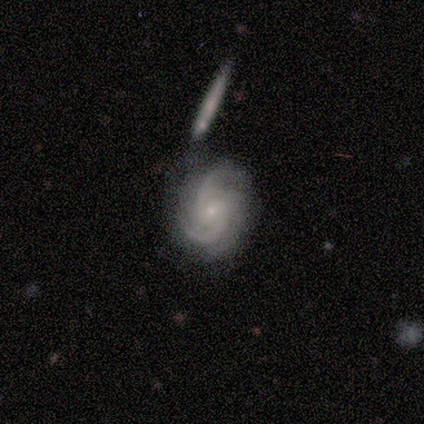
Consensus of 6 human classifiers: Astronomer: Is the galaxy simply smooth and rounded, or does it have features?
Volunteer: featured or disk — 50% (runner-up: star or artifact, 33%).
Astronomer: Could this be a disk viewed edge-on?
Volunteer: no — 100%.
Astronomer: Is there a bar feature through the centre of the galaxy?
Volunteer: weak — 67%.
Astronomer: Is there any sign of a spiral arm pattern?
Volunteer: yes — 100%.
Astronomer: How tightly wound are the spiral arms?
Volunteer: tight — 67%.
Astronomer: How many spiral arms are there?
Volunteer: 2 — 33%, tied with 3 and can't tell at 33%.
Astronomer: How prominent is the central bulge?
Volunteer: small — 67%.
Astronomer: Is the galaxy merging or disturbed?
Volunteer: none — 25%, tied with minor disturbance, major disturbance and merger at 25%.